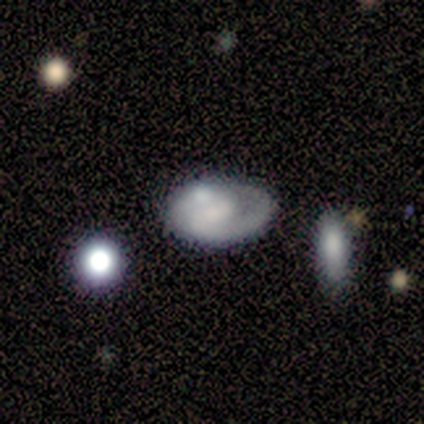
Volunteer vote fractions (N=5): Smooth or featured: featured or disk — 80% (smooth — 20%)
Edge-on disk: no — 100%
Bar: no — 75% (weak — 25%)
Spiral arms: yes — 75% (no — 25%)
Spiral winding: medium — 67% (tight — 33%)
Spiral arm count: can't tell — 67% (2 — 33%)
Bulge size: none — 50% (large — 25%)
Merging: none — 40% (tied with merger — 40%)